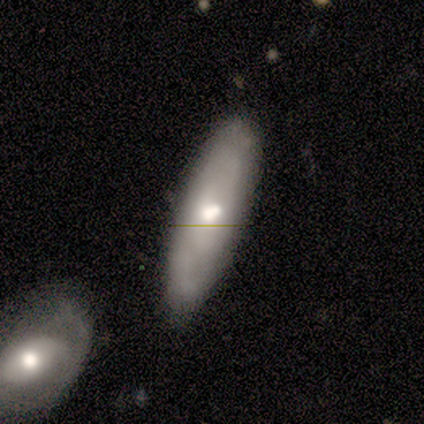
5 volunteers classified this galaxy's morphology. type=smooth (60%); roundness=cigar-shaped (67%); merging=none (60%).